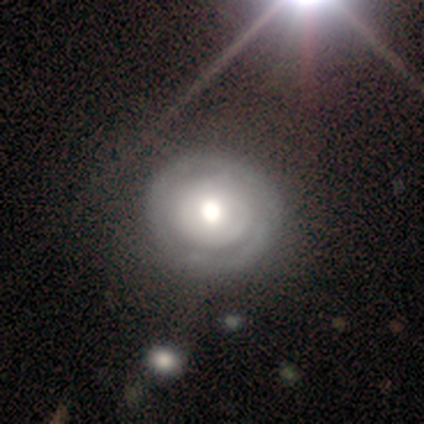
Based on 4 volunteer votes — A featured or disk galaxy (50%) with a weak bar (50%, tied with no), 2 (50%, tied with 3) medium (100%) spiral arms (100%) and a large central bulge (50%, tied with none).

Vote fractions:
- Smooth or featured? featured or disk: 50% / smooth: 25% / star or artifact: 25%
- Edge-on disk? no: 100% / yes: 0%
- Bar? weak: 50% (tied) / no: 50% (tied) / strong: 0%
- Spiral arms? yes: 100% / no: 0%
- Spiral winding? medium: 100% / tight: 0% / loose: 0%
- Spiral arm count? 2: 50% (tied) / 3: 50% (tied) / 1: 0% / 4: 0% / more than 4: 0% / can't tell: 0%
- Bulge size? large: 50% (tied) / none: 50% (tied) / dominant: 0% / moderate: 0% / small: 0%
- Merging? minor disturbance: 33% (tied) / major disturbance: 33% (tied) / merger: 33% (tied) / none: 0%